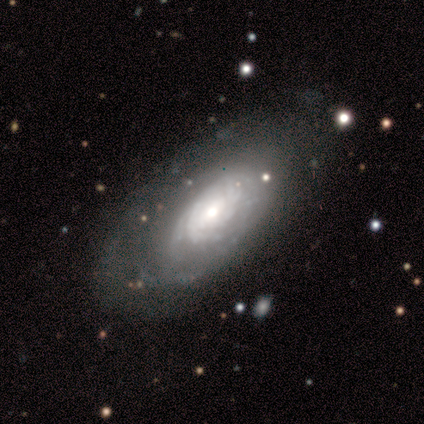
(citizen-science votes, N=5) Smooth or featured?
  - featured or disk: 100% *
  - smooth: 0%
  - star or artifact: 0%
Edge-on disk?
  - no: 80% *
  - yes: 20%
Bar?
  - no: 75% *
  - weak: 25%
  - strong: 0%
Spiral arms?
  - yes: 100% *
  - no: 0%
Spiral winding?
  - tight: 100% *
  - medium: 0%
  - loose: 0%
Spiral arm count?
  - can't tell: 50% *
  - 2: 25%
  - 3: 25%
  - 1: 0%
  - 4: 0%
  - more than 4: 0%
Bulge size?
  - moderate: 50% * (tied)
  - small: 50% * (tied)
  - dominant: 0%
  - large: 0%
  - none: 0%
Merging?
  - none: 60% *
  - minor disturbance: 40%
  - major disturbance: 0%
  - merger: 0%